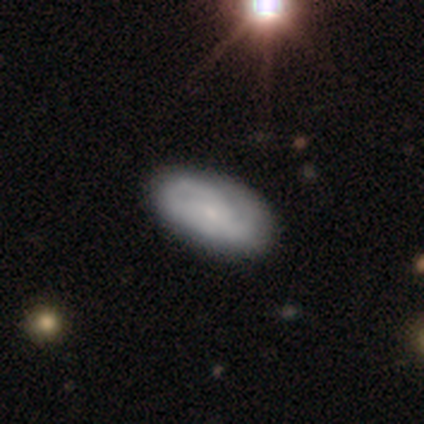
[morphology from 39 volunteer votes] Smooth or featured? 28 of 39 (72%) said featured or disk. Edge-on disk? 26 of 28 (93%) said no. Bar? 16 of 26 (62%) said no. Spiral arms? 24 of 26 (92%) said yes. Spiral winding? 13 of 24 (54%) said tight. Spiral arm count? 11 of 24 (46%) said 2. Bulge size? 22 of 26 (85%) said small. Merging? 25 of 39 (64%) said none.